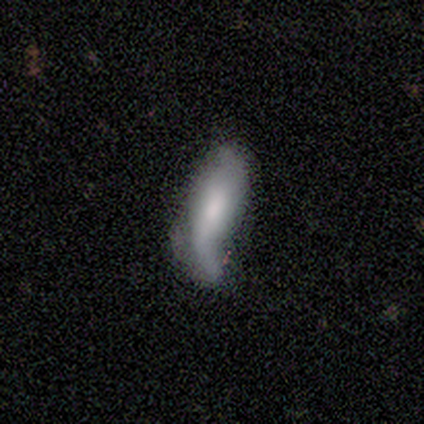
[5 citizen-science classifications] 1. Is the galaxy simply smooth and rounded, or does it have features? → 80% featured or disk, 20% smooth, 0% star or artifact.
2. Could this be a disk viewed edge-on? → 100% no, 0% yes.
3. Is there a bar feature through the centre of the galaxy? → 75% strong, 25% weak, 0% no.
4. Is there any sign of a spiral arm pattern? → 100% yes, 0% no.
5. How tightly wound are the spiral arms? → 100% loose, 0% tight, 0% medium.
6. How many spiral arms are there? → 100% 2, 0% 1, 0% 3, 0% 4, 0% more than 4, 0% can't tell.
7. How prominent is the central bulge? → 75% moderate, 25% small, 0% dominant, 0% large, 0% none.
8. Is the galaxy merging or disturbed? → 40% minor disturbance (tied), 40% major disturbance (tied), 20% none, 0% merger.